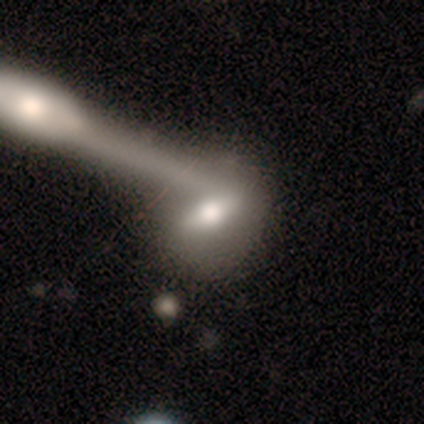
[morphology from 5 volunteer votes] Smooth or featured? 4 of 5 (80%) said featured or disk. Edge-on disk? 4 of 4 (100%) said no. Bar? 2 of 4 (50%, tied with weak) said strong. Spiral arms? 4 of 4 (100%) said no. Bulge size? 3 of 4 (75%) said large. Merging? 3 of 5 (60%) said merger.